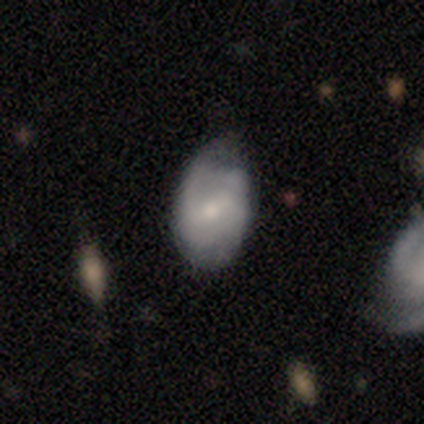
Smooth or featured: featured or disk — 58% (smooth — 40%)
Edge-on disk: no — 96% (yes — 4%)
Bar: weak — 66% (no — 21%)
Spiral arms: yes — 79% (no — 21%)
Spiral winding: tight — 43% (medium — 35%)
Spiral arm count: 2 — 54% (can't tell — 35%)
Bulge size: moderate — 47% (tied with small — 47%)
Merging: none — 45% (tied with minor disturbance — 45%)